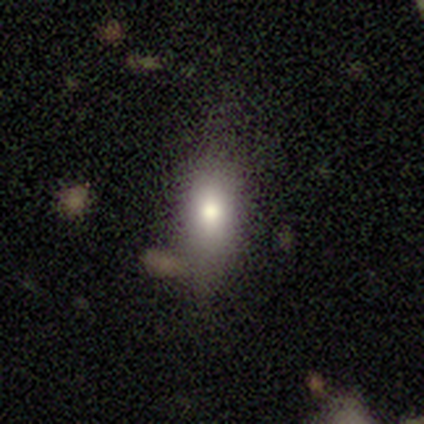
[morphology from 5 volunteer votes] Smooth or featured? smooth (60%)
How rounded? in between (67%)
Merging? none (80%)